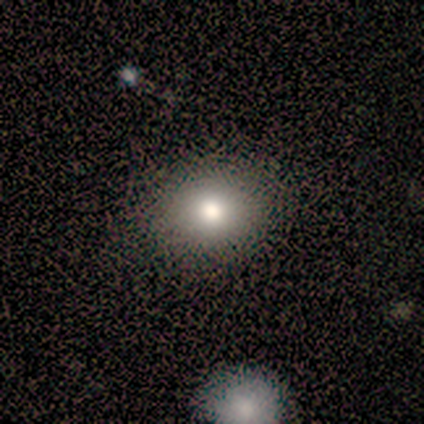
This is clearly a smooth galaxy (88%). How rounded: possibly round (57%). Merging: clearly none (100%).